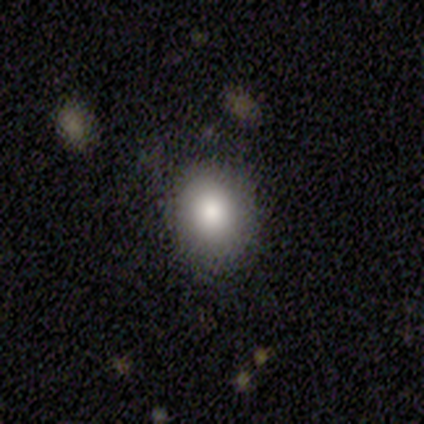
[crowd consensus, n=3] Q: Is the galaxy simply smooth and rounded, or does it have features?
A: smooth — 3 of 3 (100%).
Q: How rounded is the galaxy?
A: in between — 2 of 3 (67%).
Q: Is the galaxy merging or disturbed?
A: none — 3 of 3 (100%).